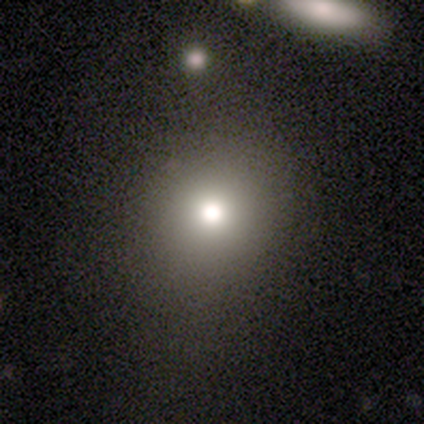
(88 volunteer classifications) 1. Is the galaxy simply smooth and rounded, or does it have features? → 68% smooth, 22% star or artifact, 10% featured or disk.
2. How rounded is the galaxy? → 83% round, 17% in between, 0% cigar-shaped.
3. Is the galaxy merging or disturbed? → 80% none, 13% minor disturbance, 4% major disturbance, 3% merger.